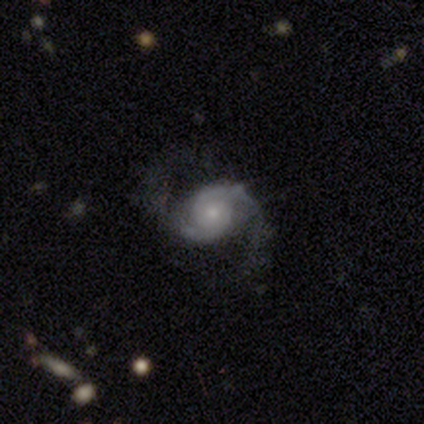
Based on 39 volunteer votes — Smooth or featured? featured or disk (95%)
Edge-on disk? no (100%)
Bar? no (81%)
Spiral arms? yes (100%)
Spiral winding? medium (51%)
Spiral arm count? 2 (92%)
Bulge size? small (70%)
Merging? none (79%)